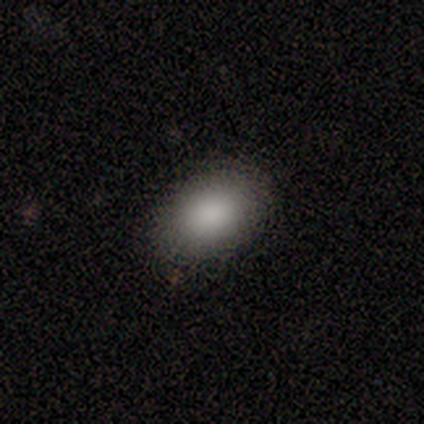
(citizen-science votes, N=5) Q: Smooth or featured?
A: smooth (100%)
Q: How rounded?
A: in between (100%)
Q: Merging?
A: none (80%); runner-up: minor disturbance (20%)